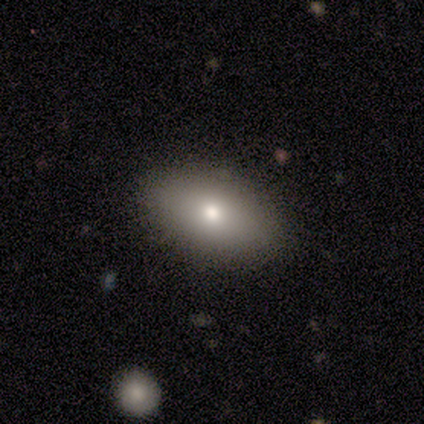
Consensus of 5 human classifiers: This is clearly a smooth galaxy (80%). How rounded: likely in between (75%). Merging: clearly none (80%).